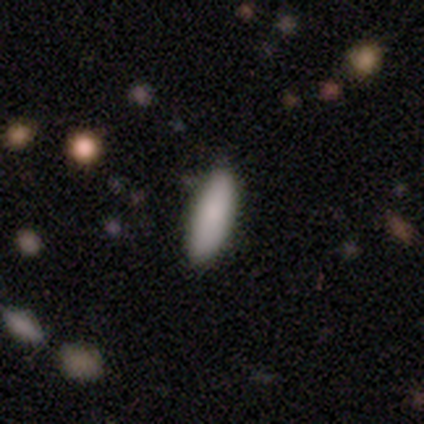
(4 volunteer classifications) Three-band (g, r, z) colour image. It shows a smooth galaxy with no disk features (75%) that is in between round and cigar-shaped (67%). Merging: none (75%).